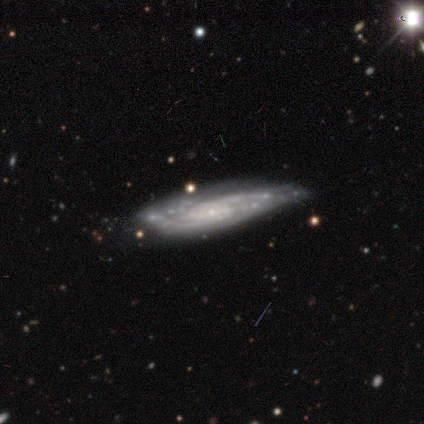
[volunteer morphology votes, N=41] type=featured or disk (95%); edge-on=no (77%); bar=no (57%); spiral arms=yes (97%); winding=tight (55%); arm count=2 (59%); bulge=small (80%); merging=none (73%).